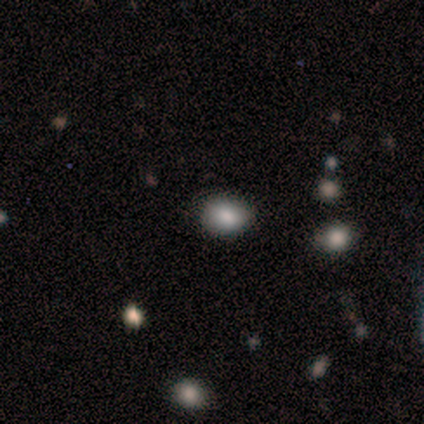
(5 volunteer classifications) smooth 60%, star or artifact 40%, featured or disk 0%. Down the decision tree: how rounded — round (67%); merging — none (67%).